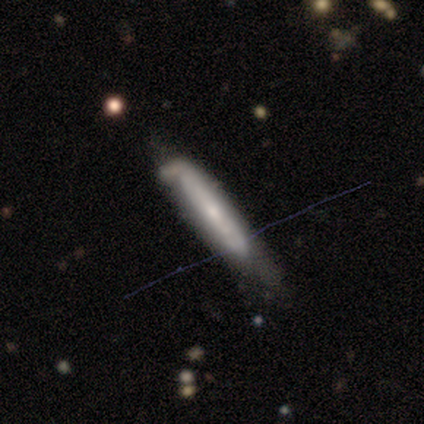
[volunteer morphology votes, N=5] Smooth or featured?
  - smooth: 60% *
  - featured or disk: 40%
  - star or artifact: 0%
How rounded?
  - cigar-shaped: 100% *
  - round: 0%
  - in between: 0%
Merging?
  - none: 60% *
  - minor disturbance: 20%
  - major disturbance: 20%
  - merger: 0%